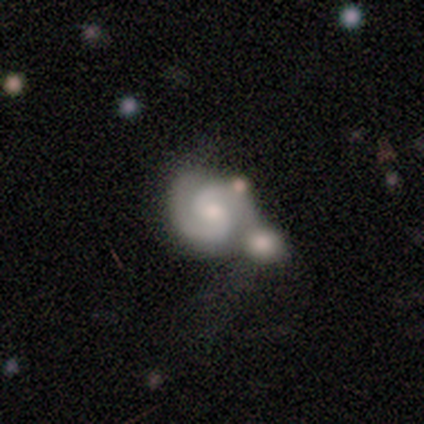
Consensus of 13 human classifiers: Overall: featured or disk (100%). Edge-on disk: no (100%). Bar: no (54%; weak 46%). Spiral arms: yes (100%). Spiral arm count: 2 (85%). Spiral winding: tight (54%; medium 31%). Bulge size: moderate (62%; small 23%). Merging: merger (54%; none 23%).